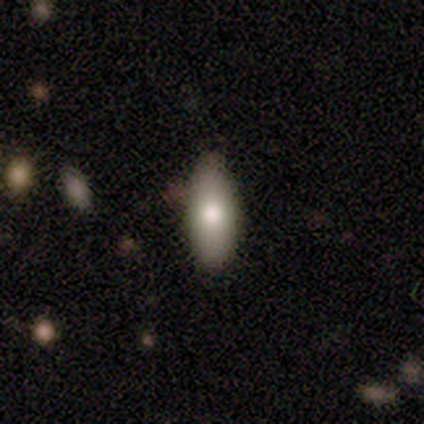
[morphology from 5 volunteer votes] A smooth galaxy with no disk features (100%) that is in between round and cigar-shaped (100%).

Vote fractions:
- Smooth or featured? smooth: 100% / featured or disk: 0% / star or artifact: 0%
- How rounded? in between: 100% / round: 0% / cigar-shaped: 0%
- Merging? none: 100% / minor disturbance: 0% / major disturbance: 0% / merger: 0%